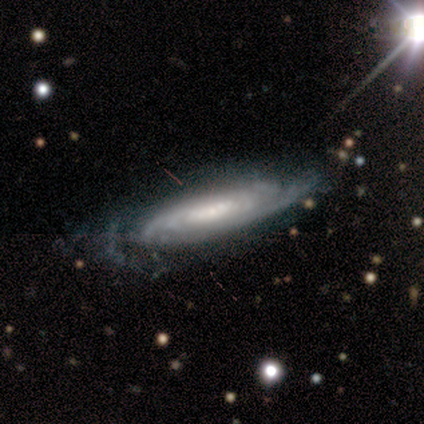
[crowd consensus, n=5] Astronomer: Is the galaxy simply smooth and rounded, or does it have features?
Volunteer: featured or disk — 100%.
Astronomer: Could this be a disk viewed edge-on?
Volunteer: no — 100%.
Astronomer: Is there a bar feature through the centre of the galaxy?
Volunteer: no — 80%.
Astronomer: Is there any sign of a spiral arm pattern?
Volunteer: yes — 100%.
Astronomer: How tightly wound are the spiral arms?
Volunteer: tight — 100%.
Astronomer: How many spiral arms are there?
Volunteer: more than 4 — 40%, tied with can't tell at 40%.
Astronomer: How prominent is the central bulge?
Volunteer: moderate — 80%.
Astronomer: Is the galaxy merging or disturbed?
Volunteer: none — 40%, tied with minor disturbance at 40%.